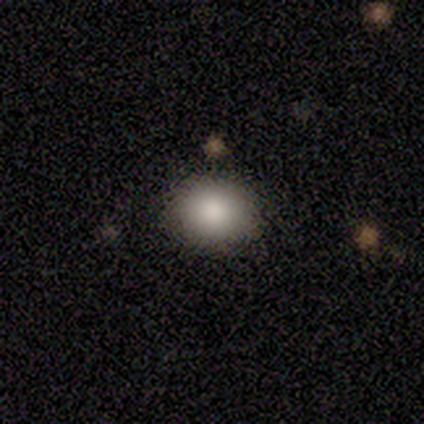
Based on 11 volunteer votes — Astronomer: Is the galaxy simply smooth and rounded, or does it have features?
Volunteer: smooth — 82%.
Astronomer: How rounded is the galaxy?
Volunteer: round — 78%.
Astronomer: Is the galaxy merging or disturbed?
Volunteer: none — 82%.